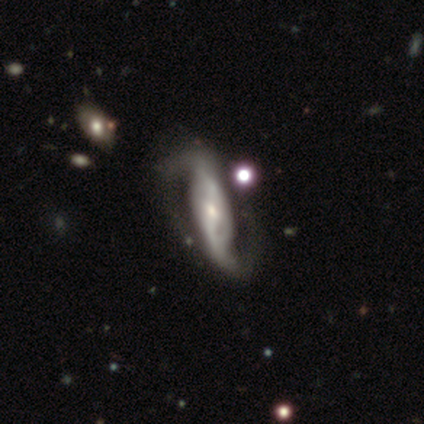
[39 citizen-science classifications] featured or disk 82%, star or artifact 13%, smooth 5%. Down the decision tree: edge-on disk — no (91%); bar — strong (62%); spiral arms — yes (100%); spiral arm count — 2 (90%); spiral winding — loose (52%); bulge size — small (48%); merging — none (59%).